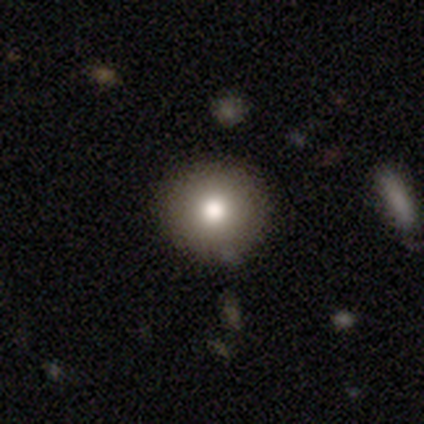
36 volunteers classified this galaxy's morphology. smooth_or_featured: smooth (p=0.81) [alt: featured or disk p=0.14]
how_rounded: round (p=0.97) [alt: in between p=0.03]
merging: none (p=0.91) [alt: minor disturbance p=0.06]